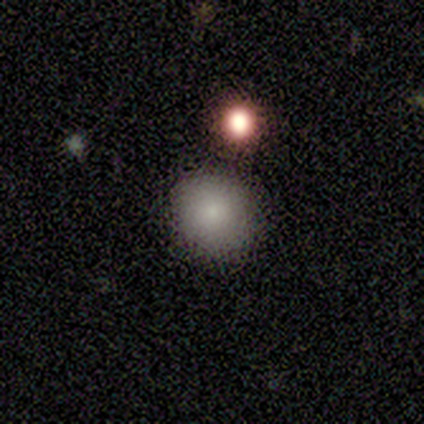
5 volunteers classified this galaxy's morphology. This appears to be a smooth galaxy with no disk features (100%) that is round (100%). Merging: none (100%).